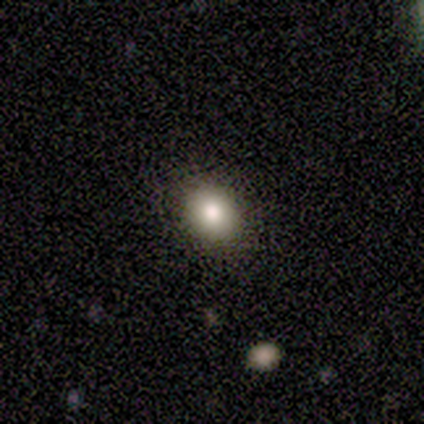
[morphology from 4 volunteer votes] Smooth or featured? smooth (100%)
How rounded? round (75%)
Merging? none (75%)